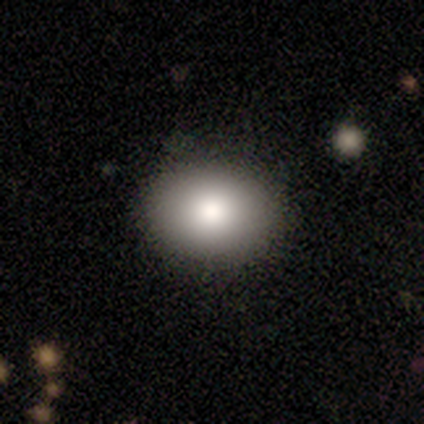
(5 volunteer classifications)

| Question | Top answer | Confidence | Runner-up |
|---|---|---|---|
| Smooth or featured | smooth | 80% | featured or disk (20%) |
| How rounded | round | 50% | tied: in between (50%) |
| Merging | none | 60% | minor disturbance (20%) |